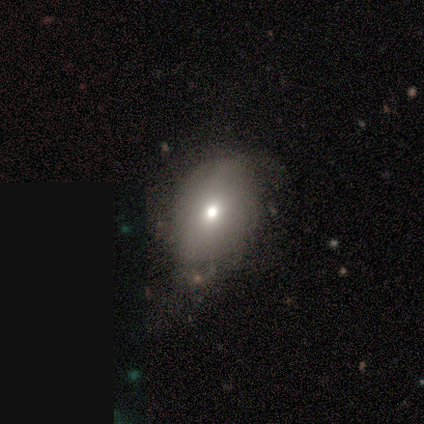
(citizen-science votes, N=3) Smooth or featured?
  - smooth: 67% *
  - star or artifact: 33%
  - featured or disk: 0%
How rounded?
  - round: 50% * (tied)
  - in between: 50% * (tied)
  - cigar-shaped: 0%
Merging?
  - minor disturbance: 100% *
  - none: 0%
  - major disturbance: 0%
  - merger: 0%